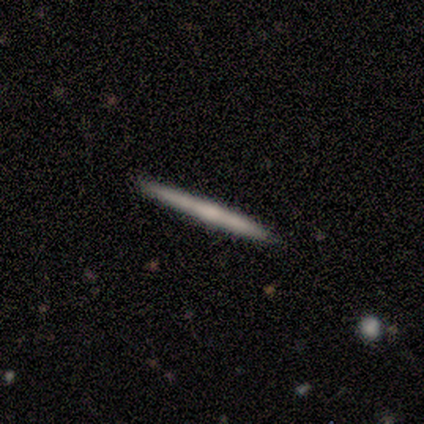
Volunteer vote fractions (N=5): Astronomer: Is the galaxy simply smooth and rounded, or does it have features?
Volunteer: featured or disk — 60% (runner-up: smooth, 40%).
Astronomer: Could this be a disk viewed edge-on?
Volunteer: yes — 100%.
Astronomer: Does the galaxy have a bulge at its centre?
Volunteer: none — 100%.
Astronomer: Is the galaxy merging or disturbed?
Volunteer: none — 100%.